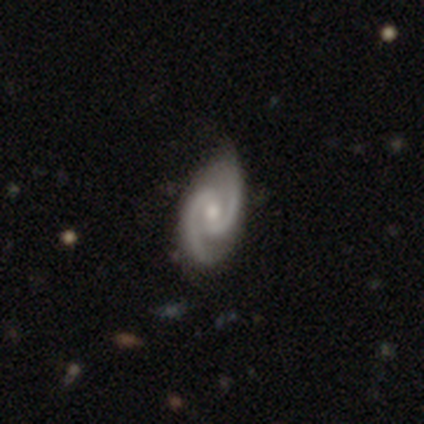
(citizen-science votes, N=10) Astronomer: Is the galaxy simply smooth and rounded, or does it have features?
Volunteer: featured or disk — 100%.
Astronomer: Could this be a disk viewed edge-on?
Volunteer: no — 100%.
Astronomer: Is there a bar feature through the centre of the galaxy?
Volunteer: weak — 70%.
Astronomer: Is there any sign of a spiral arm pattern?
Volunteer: yes — 100%.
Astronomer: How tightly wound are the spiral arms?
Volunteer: medium — 60%.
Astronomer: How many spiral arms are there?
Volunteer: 2 — 100%.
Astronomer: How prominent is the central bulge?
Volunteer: moderate — 80%.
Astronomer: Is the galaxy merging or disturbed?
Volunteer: none — 70%.